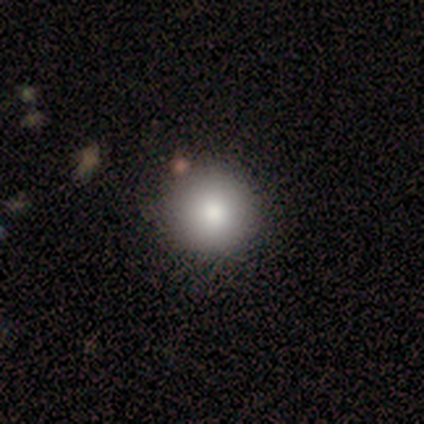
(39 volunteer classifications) Smooth or featured: smooth — 92% (featured or disk — 5%)
How rounded: round — 100%
Merging: none — 68% (minor disturbance — 13%)